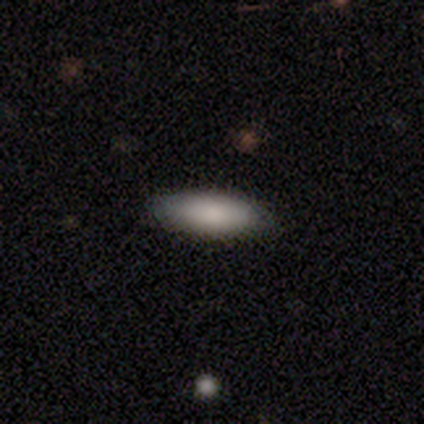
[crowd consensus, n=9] Morphology: type=smooth (56%); roundness=in between (100%); merging=none (100%).